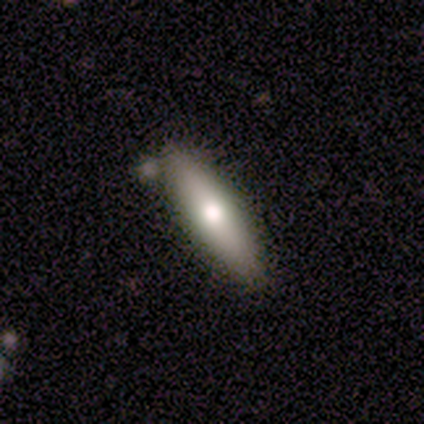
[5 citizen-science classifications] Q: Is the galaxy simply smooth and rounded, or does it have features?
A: smooth — 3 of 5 (60%).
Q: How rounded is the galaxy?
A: cigar-shaped — 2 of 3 (67%).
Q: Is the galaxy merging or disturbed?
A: none — 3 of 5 (60%).